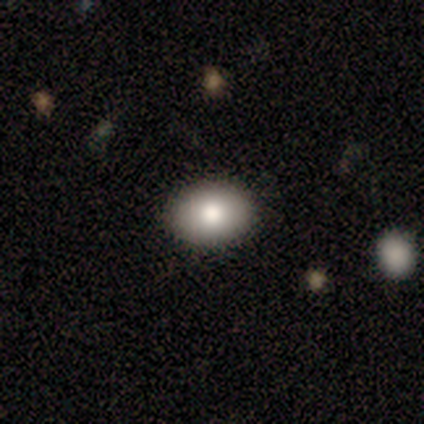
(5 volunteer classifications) smooth_or_featured: smooth (p=1.00)
how_rounded: in between (p=0.60) [alt: round p=0.40]
merging: none (p=0.80) [alt: minor disturbance p=0.20]